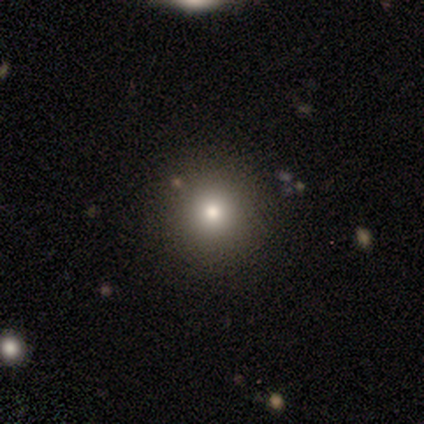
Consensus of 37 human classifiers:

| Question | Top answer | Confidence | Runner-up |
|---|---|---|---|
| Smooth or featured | smooth | 59% | star or artifact (27%) |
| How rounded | round | 95% | cigar-shaped (5%) |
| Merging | none | 100% | — |